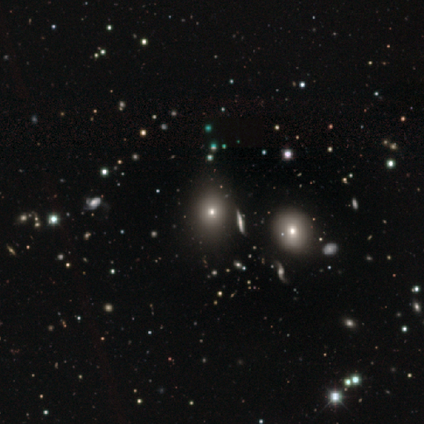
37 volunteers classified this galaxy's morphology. smooth_or_featured: smooth (p=0.76) [alt: star or artifact p=0.16]
how_rounded: round (p=0.64) [alt: in between p=0.32]
merging: none (p=0.84) [alt: minor disturbance p=0.06]